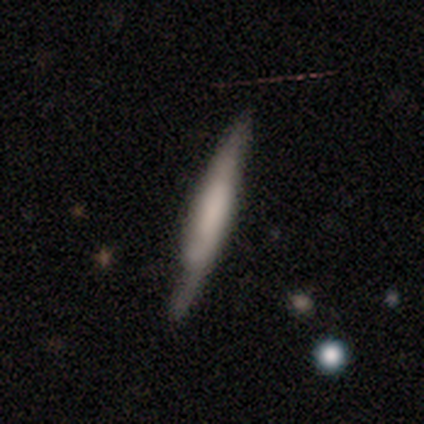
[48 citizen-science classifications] A featured or disk galaxy (54%) viewed edge-on (88%) with a boxy central bulge (78%). Merging: none (74%).